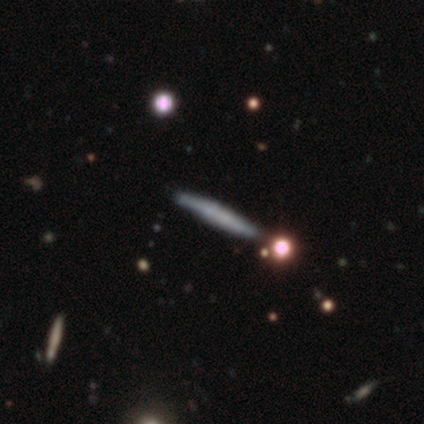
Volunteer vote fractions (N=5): Morphology: type=featured or disk (60%); edge-on=yes (67%); edge-on bulge=none (100%); merging=none (80%).